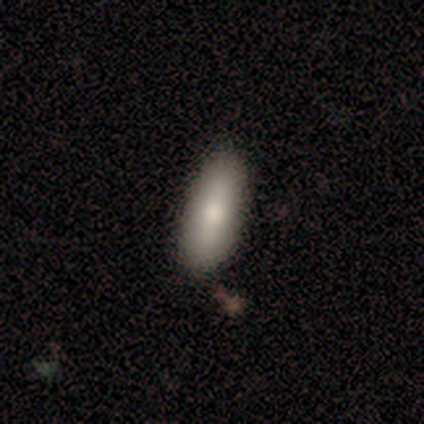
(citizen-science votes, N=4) Volunteers were most divided on "merging" (2-way tie): none: 50%, minor disturbance: 50%, major disturbance: 0%, merger: 0%. More confident: smooth or featured — smooth (100%); how rounded — in between (100%).